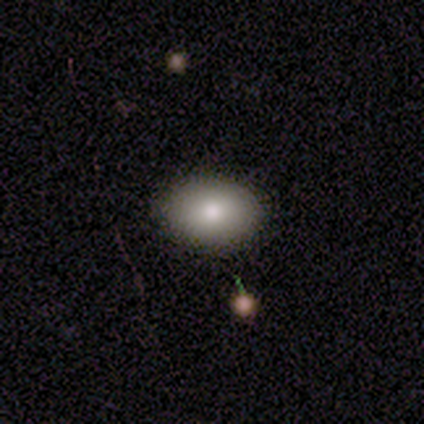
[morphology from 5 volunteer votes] Q: Smooth or featured?
A: smooth (100%)
Q: How rounded?
A: in between (80%); runner-up: round (20%)
Q: Merging?
A: none (100%)